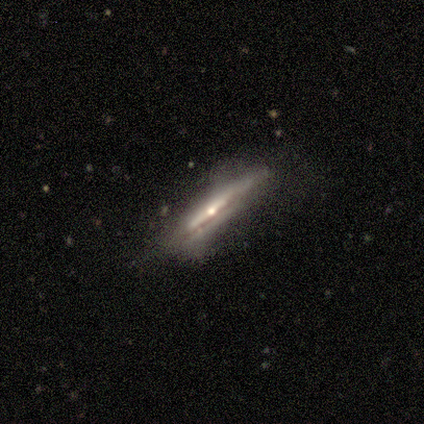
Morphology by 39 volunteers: A featured or disk galaxy (77%) viewed edge-on (100%) with a rounded central bulge (57%).

Vote fractions:
- Smooth or featured? featured or disk: 77% / smooth: 13% / star or artifact: 10%
- Edge-on disk? yes: 100% / no: 0%
- Edge-on bulge? rounded: 57% / none: 27% / boxy: 17%
- Merging? none: 63% / minor disturbance: 29% / major disturbance: 9% / merger: 0%